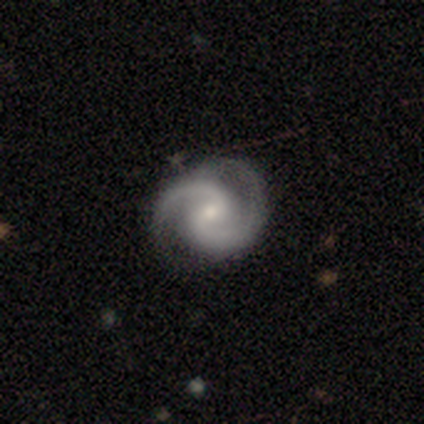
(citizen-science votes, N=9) This appears to be a featured or disk galaxy (89%) with no bar (62%), 2 (100%) tight (75%) spiral arms (100%) and a small central bulge (62%). Merging: none (88%).